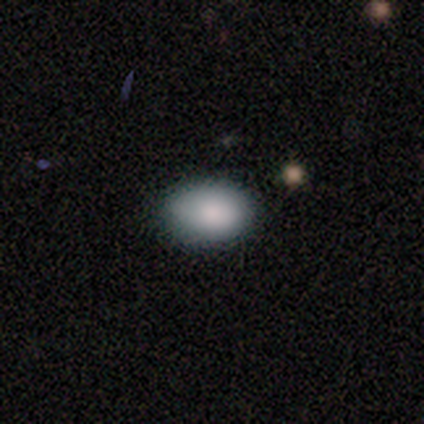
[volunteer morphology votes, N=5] smooth 100%, featured or disk 0%, star or artifact 0%. Down the decision tree: how rounded — in between (100%); merging — none (100%).